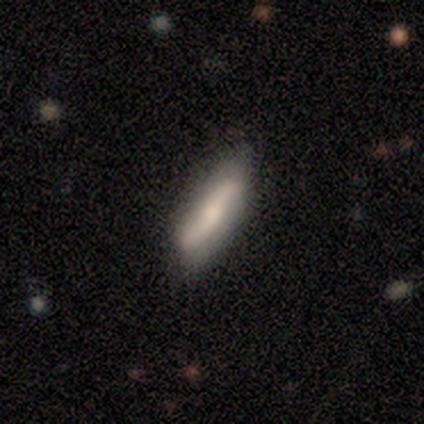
Q: Smooth or featured?
A: featured or disk (79%); runner-up: smooth (16%)
Q: Edge-on disk?
A: no (73%); runner-up: yes (27%)
Q: Bar?
A: no (45%); runner-up: strong (36%)
Q: Spiral arms?
A: yes (82%); runner-up: no (18%)
Q: Spiral winding?
A: loose (83%); runner-up: medium (11%)
Q: Spiral arm count?
A: 2 (83%); runner-up: 1 (11%)
Q: Bulge size?
A: small (64%); runner-up: moderate (32%)
Q: Merging?
A: none (81%); runner-up: minor disturbance (17%)